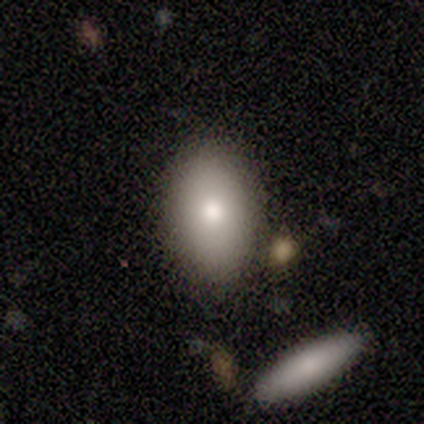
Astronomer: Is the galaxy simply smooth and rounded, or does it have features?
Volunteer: smooth — 100%.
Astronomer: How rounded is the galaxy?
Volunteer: in between — 80%.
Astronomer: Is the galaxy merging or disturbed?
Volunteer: none — 80%.